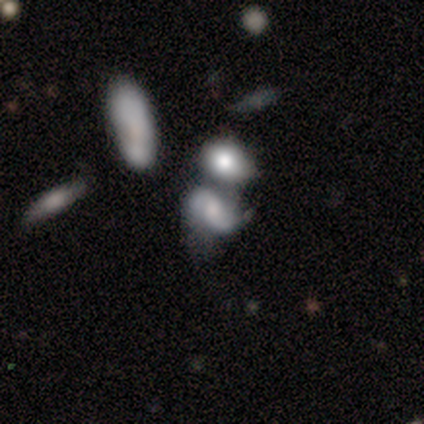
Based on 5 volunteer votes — Volunteers were most divided on "smooth or featured": smooth: 60%, featured or disk: 40%, star or artifact: 0%. More confident: how rounded — in between (67%); merging — merger (60%).